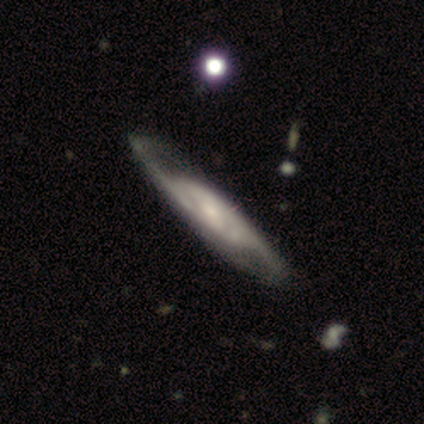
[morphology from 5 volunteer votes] Q: Smooth or featured?
A: featured or disk (80%); runner-up: star or artifact (20%)
Q: Edge-on disk?
A: no (75%); runner-up: yes (25%)
Q: Bar?
A: weak (67%); runner-up: no (33%)
Q: Spiral arms?
A: yes (100%)
Q: Spiral winding?
A: loose (67%); runner-up: medium (33%)
Q: Spiral arm count?
A: can't tell (67%); runner-up: 2 (33%)
Q: Bulge size?
A: large (67%); runner-up: small (33%)
Q: Merging?
A: none (100%)